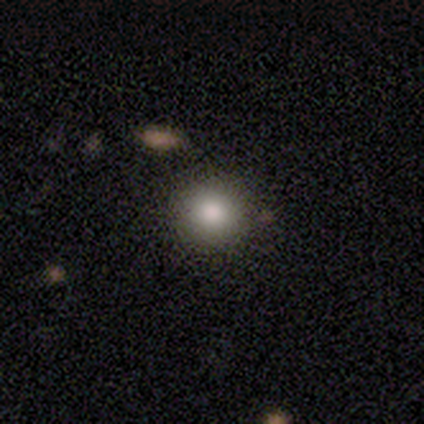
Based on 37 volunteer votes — Overall: smooth (84%). How rounded: round (97%). Merging: none (78%).